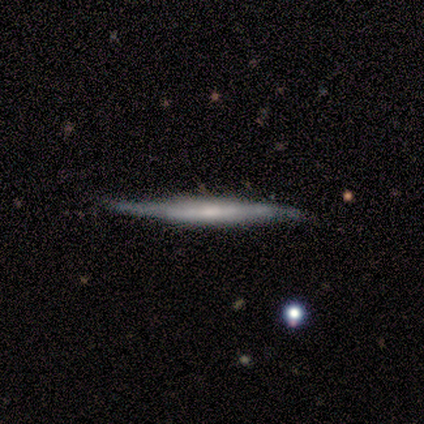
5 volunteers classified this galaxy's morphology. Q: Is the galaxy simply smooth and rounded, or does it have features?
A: smooth — 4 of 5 (80%).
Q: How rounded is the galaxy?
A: cigar-shaped — 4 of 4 (100%).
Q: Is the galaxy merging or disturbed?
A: none — 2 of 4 (50%).